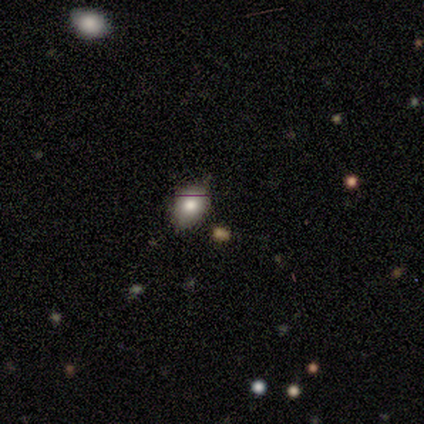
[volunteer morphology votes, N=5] Volunteers were most divided on "how rounded": round: 67%, in between: 33%, cigar-shaped: 0%. More confident: merging — none (100%); smooth or featured — smooth (60%).